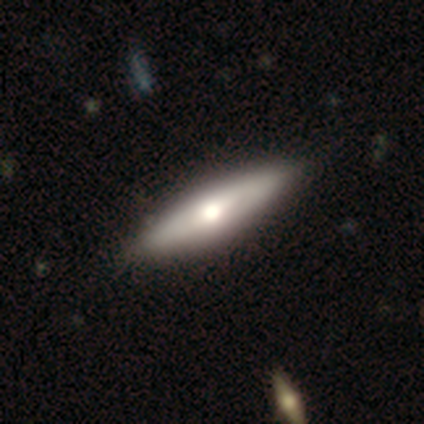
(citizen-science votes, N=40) Smooth or featured: featured or disk — 57% (smooth — 40%)
Edge-on disk: yes — 83% (no — 17%)
Edge-on bulge: rounded — 100%
Merging: none — 74% (minor disturbance — 5%)